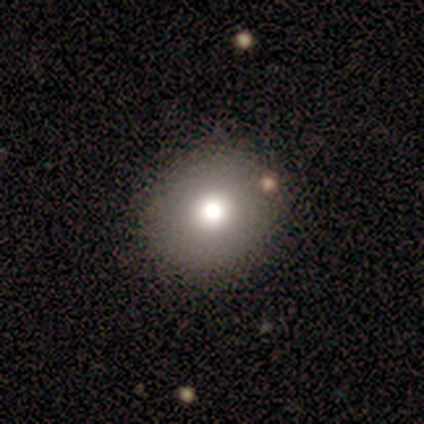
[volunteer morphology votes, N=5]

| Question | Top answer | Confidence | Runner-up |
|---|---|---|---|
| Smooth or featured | smooth | 60% | featured or disk (20%) |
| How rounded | round | 100% | — |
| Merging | none | 100% | — |